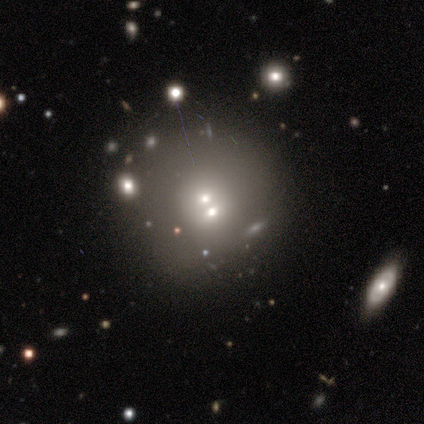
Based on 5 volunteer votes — smooth 80%, star or artifact 20%, featured or disk 0%. Down the decision tree: how rounded — round (100%); merging — merger (75%).